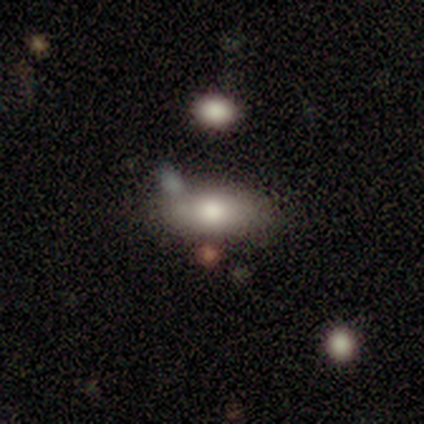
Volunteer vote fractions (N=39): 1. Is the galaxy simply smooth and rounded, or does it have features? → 67% smooth, 21% star or artifact, 13% featured or disk.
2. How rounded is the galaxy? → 92% in between, 8% cigar-shaped, 0% round.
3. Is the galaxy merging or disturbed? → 68% none, 13% minor disturbance, 10% major disturbance, 10% merger.